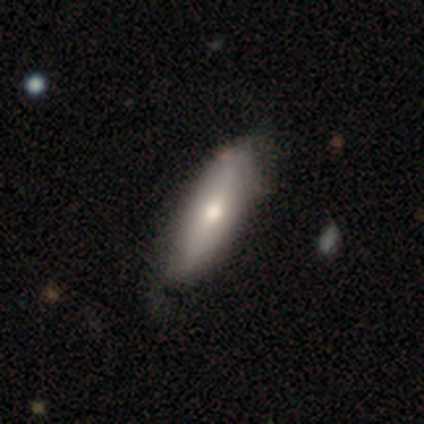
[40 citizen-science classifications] This is likely a smooth galaxy (68%). How rounded: likely in between (74%). Merging: possibly none (52%).